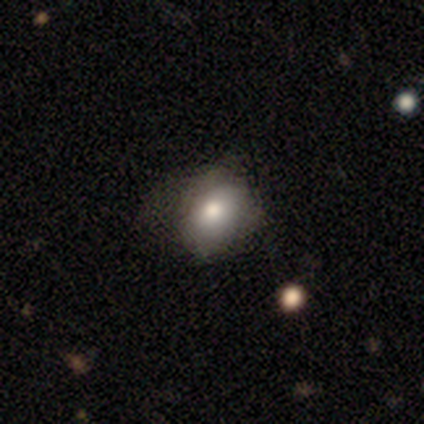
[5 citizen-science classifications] A smooth galaxy with no disk features (60%) that is round (67%).

Vote fractions:
- Smooth or featured? smooth: 60% / featured or disk: 40% / star or artifact: 0%
- How rounded? round: 67% / in between: 33% / cigar-shaped: 0%
- Merging? none: 40% (tied) / minor disturbance: 40% (tied) / major disturbance: 20% / merger: 0%